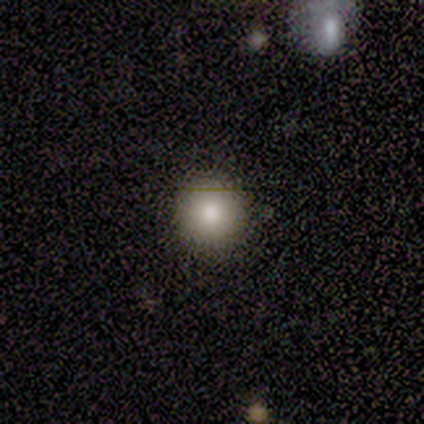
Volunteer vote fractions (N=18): A smooth galaxy with no disk features (72%) that is round (85%).

Vote fractions:
- Smooth or featured? smooth: 72% / featured or disk: 17% / star or artifact: 11%
- How rounded? round: 85% / in between: 15% / cigar-shaped: 0%
- Merging? none: 81% / minor disturbance: 19% / major disturbance: 0% / merger: 0%